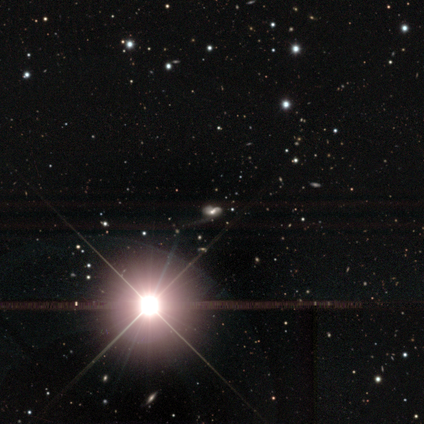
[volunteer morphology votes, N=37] type=star or artifact (76%).